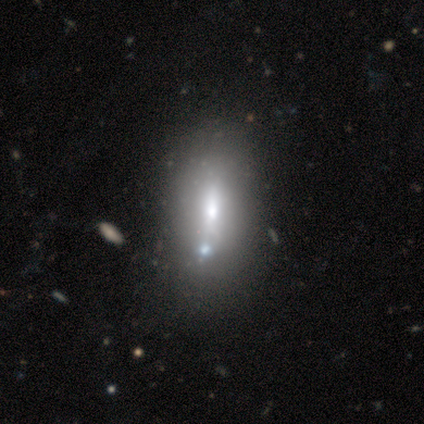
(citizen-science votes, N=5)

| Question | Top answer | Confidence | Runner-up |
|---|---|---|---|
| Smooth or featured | smooth | 40% | tied: featured or disk (40%) |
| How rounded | in between | 100% | — |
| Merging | none | 75% | merger (25%) |